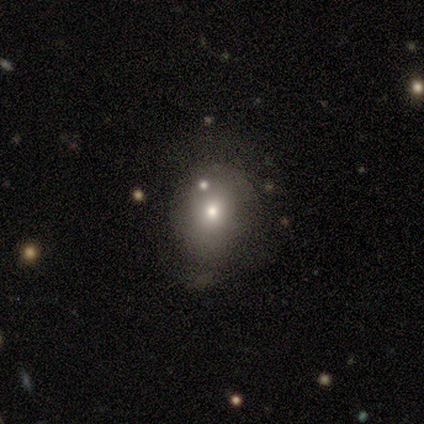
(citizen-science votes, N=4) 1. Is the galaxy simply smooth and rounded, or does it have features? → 75% smooth, 25% star or artifact, 0% featured or disk.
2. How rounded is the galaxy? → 67% round, 33% in between, 0% cigar-shaped.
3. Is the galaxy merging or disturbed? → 67% none, 33% major disturbance, 0% minor disturbance, 0% merger.